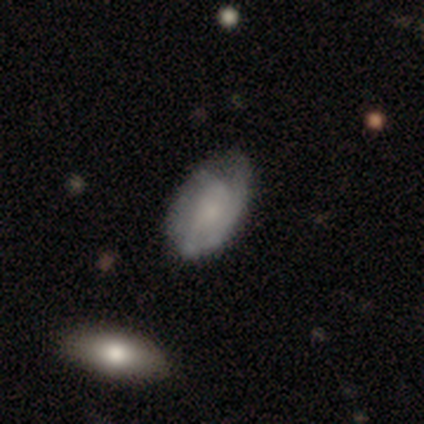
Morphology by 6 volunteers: smooth-or-featured: featured or disk: 67% | smooth: 33% | star or artifact: 0%
  disk-edge-on: no: 75% | yes: 25%
    bar: no: 100% | strong: 0% | weak: 0%
    has-spiral-arms: no: 67% | yes: 33%
    bulge-size: large: 33% (tied) | small: 33% (tied) | none: 33% (tied) | dominant: 0% | moderate: 0%
  merging: none: 67% | minor disturbance: 17% | major disturbance: 17% | merger: 0%